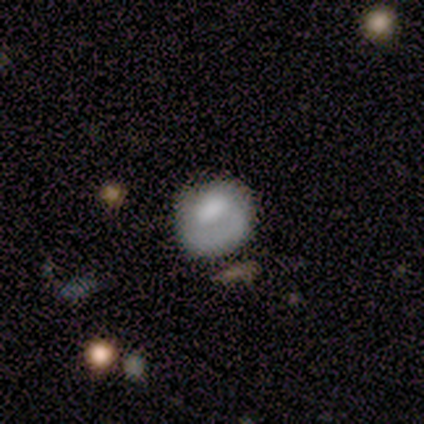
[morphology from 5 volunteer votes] This appears to be a smooth galaxy with no disk features (40%, tied with featured or disk) that is round (100%). Merging: none (100%).